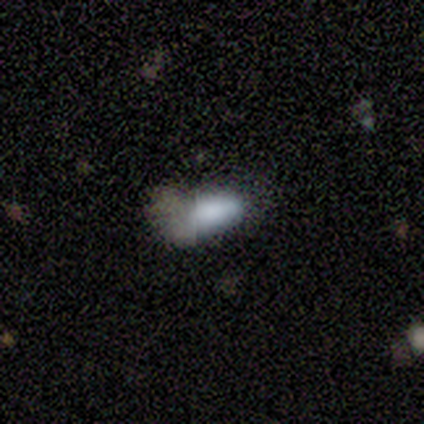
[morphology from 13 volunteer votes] Smooth or featured?
  - smooth: 92% *
  - featured or disk: 8%
  - star or artifact: 0%
How rounded?
  - in between: 92% *
  - cigar-shaped: 8%
  - round: 0%
Merging?
  - minor disturbance: 46% * (tied)
  - major disturbance: 46% * (tied)
  - none: 8%
  - merger: 0%